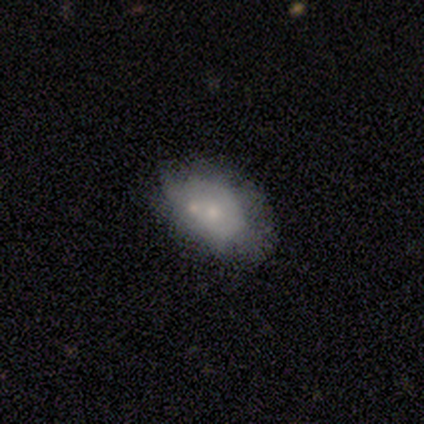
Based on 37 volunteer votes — Smooth or featured?
  - smooth: 57% *
  - featured or disk: 38%
  - star or artifact: 5%
How rounded?
  - in between: 90% *
  - round: 10%
  - cigar-shaped: 0%
Merging?
  - merger: 34% *
  - none: 31%
  - minor disturbance: 23%
  - major disturbance: 11%